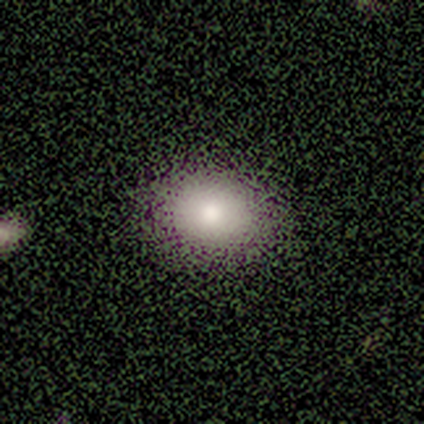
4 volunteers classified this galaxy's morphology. This is clearly a smooth galaxy (100%). How rounded: likely in between (75%). Merging: clearly none (100%).